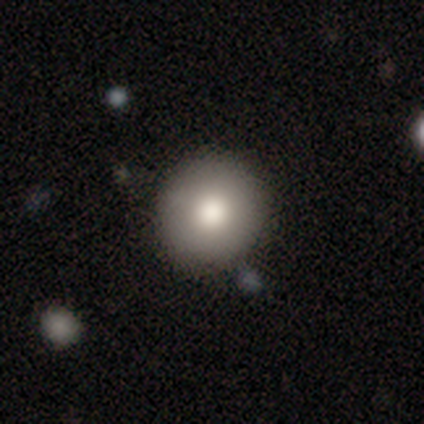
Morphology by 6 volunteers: Smooth or featured?
  - smooth: 67% *
  - featured or disk: 33%
  - star or artifact: 0%
How rounded?
  - round: 100% *
  - in between: 0%
  - cigar-shaped: 0%
Merging?
  - none: 83% *
  - minor disturbance: 17%
  - major disturbance: 0%
  - merger: 0%